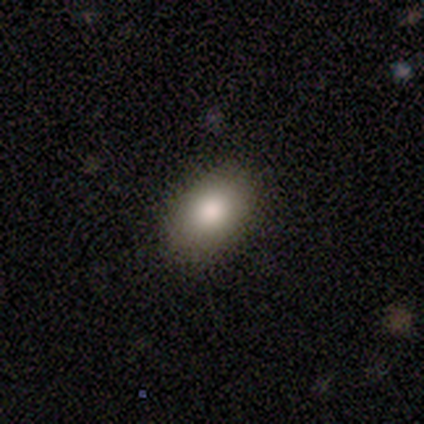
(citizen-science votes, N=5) smooth-or-featured: smooth: 60% | featured or disk: 20% | star or artifact: 20%
  how-rounded: in between: 67% | round: 33% | cigar-shaped: 0%
  merging: none: 100% | minor disturbance: 0% | major disturbance: 0% | merger: 0%